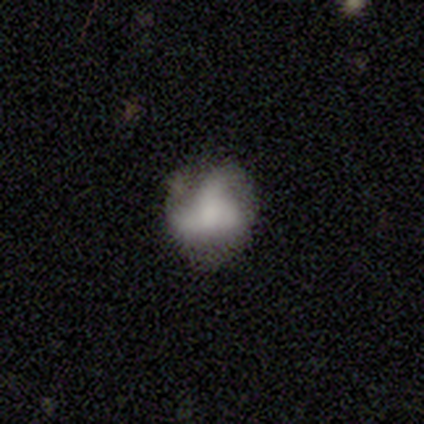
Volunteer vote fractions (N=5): A featured or disk galaxy (60%) with no bar (67%), 3 (67%) loose (67%) spiral arms (100%) and a moderate central bulge (100%).

Vote fractions:
- Smooth or featured? featured or disk: 60% / smooth: 40% / star or artifact: 0%
- Edge-on disk? no: 100% / yes: 0%
- Bar? no: 67% / strong: 33% / weak: 0%
- Spiral arms? yes: 100% / no: 0%
- Spiral winding? loose: 67% / medium: 33% / tight: 0%
- Spiral arm count? 3: 67% / can't tell: 33% / 1: 0% / 2: 0% / 4: 0% / more than 4: 0%
- Bulge size? moderate: 100% / dominant: 0% / large: 0% / small: 0% / none: 0%
- Merging? minor disturbance: 40% (tied) / major disturbance: 40% (tied) / none: 20% / merger: 0%